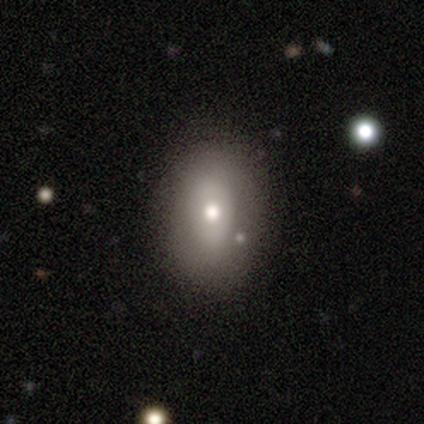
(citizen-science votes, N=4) Overall: smooth (50%; featured or disk 25%). How rounded: round (50%, tied with in between). Merging: minor disturbance (67%; none 33%).